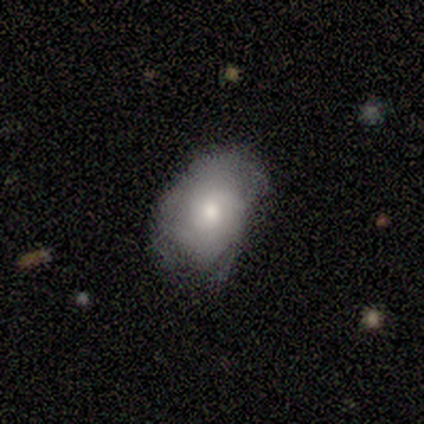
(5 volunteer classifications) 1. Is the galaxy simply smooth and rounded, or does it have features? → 60% smooth, 40% featured or disk, 0% star or artifact.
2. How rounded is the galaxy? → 100% in between, 0% round, 0% cigar-shaped.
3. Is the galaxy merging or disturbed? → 40% minor disturbance (tied), 40% major disturbance (tied), 20% none, 0% merger.